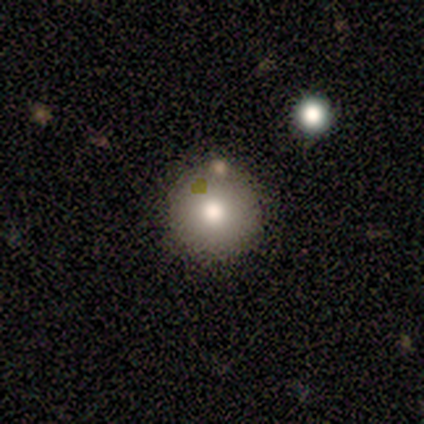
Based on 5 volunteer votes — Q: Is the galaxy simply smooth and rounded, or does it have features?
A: smooth — 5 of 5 (100%).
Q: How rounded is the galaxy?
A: round — 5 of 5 (100%).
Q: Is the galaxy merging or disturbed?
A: none — 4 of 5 (80%).